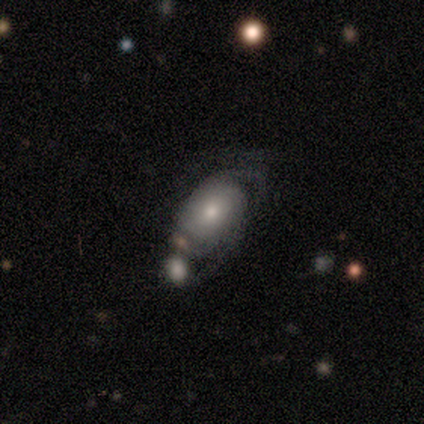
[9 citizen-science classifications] smooth-or-featured: featured or disk: 67% | smooth: 33% | star or artifact: 0%
  disk-edge-on: no: 83% | yes: 17%
    bar: no: 100% | strong: 0% | weak: 0%
    has-spiral-arms: yes: 100% | no: 0%
      spiral-winding: tight: 40% (tied) | medium: 40% (tied) | loose: 20%
      spiral-arm-count: can't tell: 60% | 2: 40% | 1: 0% | 3: 0% | 4: 0% | more than 4: 0%
    bulge-size: moderate: 40% | large: 20% | small: 20% | none: 20% | dominant: 0%
  merging: none: 44% | minor disturbance: 33% | major disturbance: 22% | merger: 0%